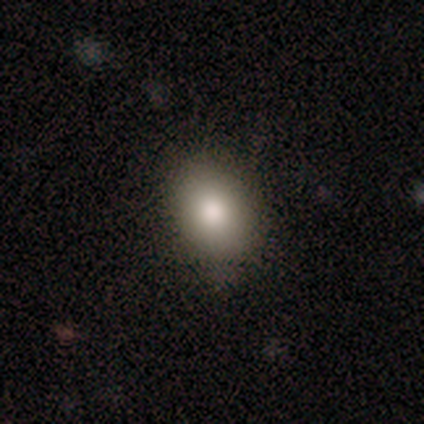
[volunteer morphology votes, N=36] Smooth or featured?
  - smooth: 81% *
  - featured or disk: 11%
  - star or artifact: 8%
How rounded?
  - in between: 66% *
  - round: 31%
  - cigar-shaped: 3%
Merging?
  - none: 88% *
  - minor disturbance: 9%
  - major disturbance: 3%
  - merger: 0%